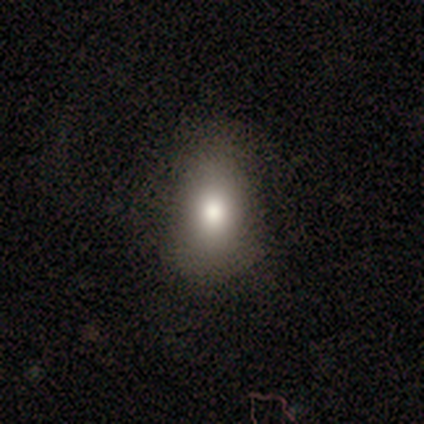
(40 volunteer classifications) Smooth or featured? 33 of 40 (82%) said smooth. How rounded? 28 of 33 (85%) said in between. Merging? 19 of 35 (54%) said none.